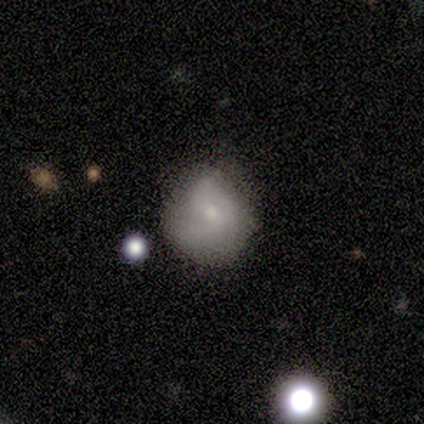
smooth_or_featured: smooth (p=0.80) [alt: star or artifact p=0.20]
how_rounded: round (p=0.75) [alt: in between p=0.25]
merging: none (p=0.50) [alt: minor disturbance p=0.25]